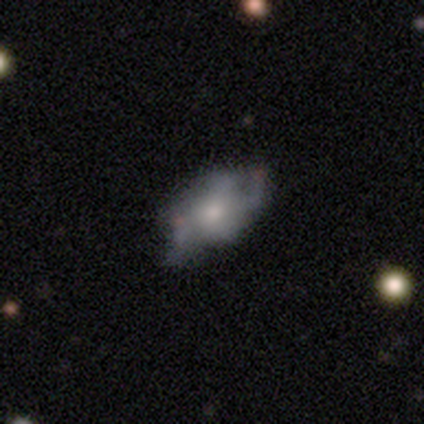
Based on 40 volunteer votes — Smooth or featured? featured or disk (70%)
Edge-on disk? no (100%)
Bar? no (71%)
Spiral arms? yes (61%)
Spiral winding? loose (41%)
Spiral arm count? can't tell (41%)
Bulge size? moderate (50%)
Merging? none (53%)